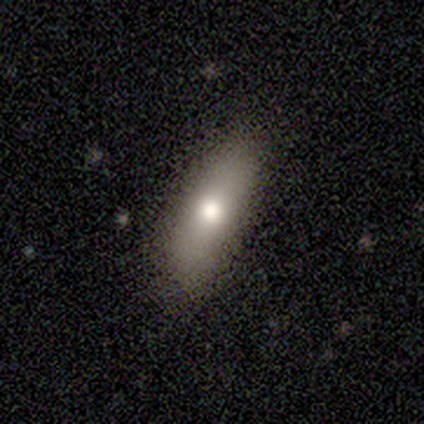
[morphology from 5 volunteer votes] This appears to be a smooth galaxy with no disk features (60%) that is cigar-shaped (67%). Merging: none (75%).